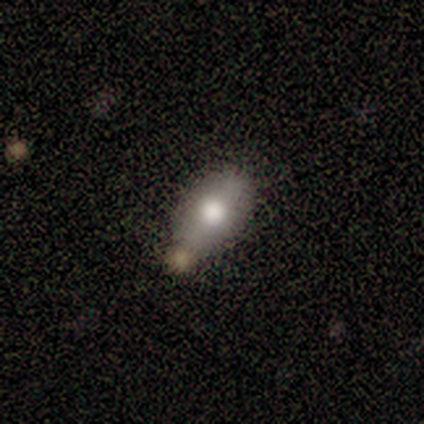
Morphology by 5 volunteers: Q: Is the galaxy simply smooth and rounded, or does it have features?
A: smooth — 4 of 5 (80%).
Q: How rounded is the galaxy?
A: in between — 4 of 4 (100%).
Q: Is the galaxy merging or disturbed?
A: none — 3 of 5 (60%).